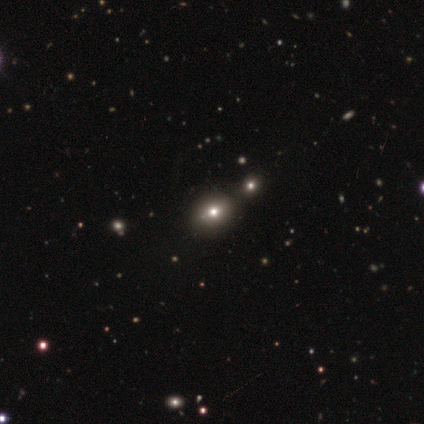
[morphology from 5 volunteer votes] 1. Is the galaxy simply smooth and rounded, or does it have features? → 80% smooth, 20% star or artifact, 0% featured or disk.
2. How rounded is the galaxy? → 75% round, 25% in between, 0% cigar-shaped.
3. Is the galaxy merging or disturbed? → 75% none, 25% major disturbance, 0% minor disturbance, 0% merger.